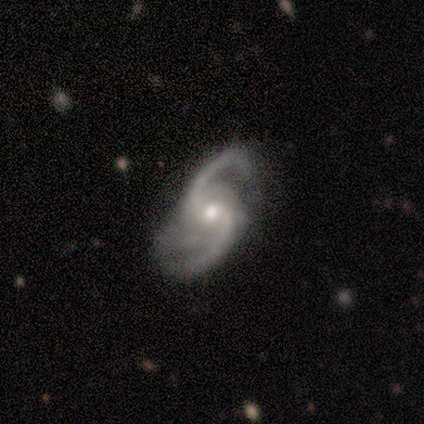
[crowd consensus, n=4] smooth-or-featured: featured or disk: 75% | smooth: 25% | star or artifact: 0%
  disk-edge-on: no: 100% | yes: 0%
    bar: no: 100% | strong: 0% | weak: 0%
    has-spiral-arms: yes: 100% | no: 0%
      spiral-winding: loose: 100% | tight: 0% | medium: 0%
      spiral-arm-count: 2: 100% | 1: 0% | 3: 0% | 4: 0% | more than 4: 0% | can't tell: 0%
    bulge-size: moderate: 67% | small: 33% | dominant: 0% | large: 0% | none: 0%
  merging: major disturbance: 50% | none: 25% | minor disturbance: 25% | merger: 0%